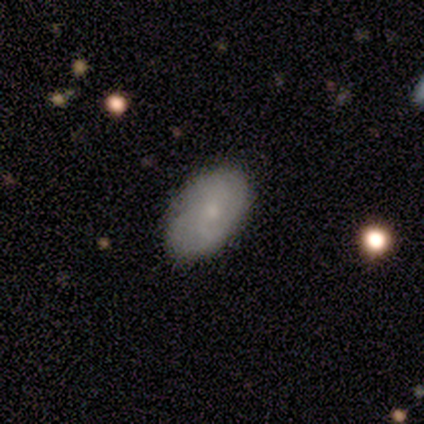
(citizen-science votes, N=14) smooth-or-featured: smooth: 57% | featured or disk: 29% | star or artifact: 14%
  how-rounded: in between: 100% | round: 0% | cigar-shaped: 0%
  merging: none: 50% (tied) | minor disturbance: 50% (tied) | major disturbance: 0% | merger: 0%